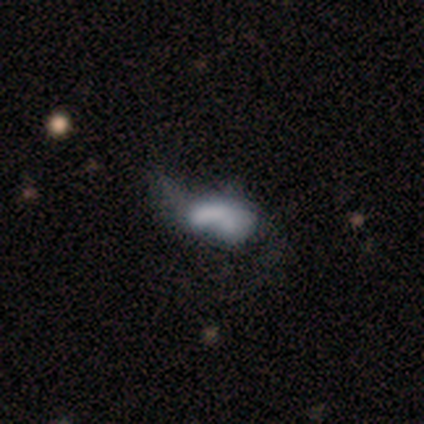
Smooth or featured?
  - featured or disk: 67% *
  - smooth: 33%
  - star or artifact: 0%
Edge-on disk?
  - no: 100% *
  - yes: 0%
Bar?
  - no: 75% *
  - strong: 25%
  - weak: 0%
Spiral arms?
  - no: 75% *
  - yes: 25%
Bulge size?
  - none: 50% *
  - large: 25%
  - small: 25%
  - dominant: 0%
  - moderate: 0%
Merging?
  - major disturbance: 33% * (tied)
  - merger: 33% * (tied)
  - none: 17%
  - minor disturbance: 17%